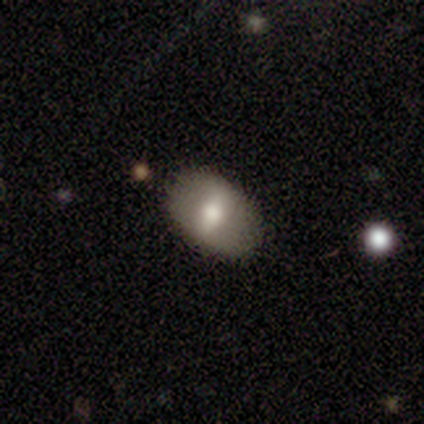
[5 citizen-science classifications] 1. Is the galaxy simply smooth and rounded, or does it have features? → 60% smooth, 40% featured or disk, 0% star or artifact.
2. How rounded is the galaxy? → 67% in between, 33% cigar-shaped, 0% round.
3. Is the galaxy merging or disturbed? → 80% none, 20% minor disturbance, 0% major disturbance, 0% merger.